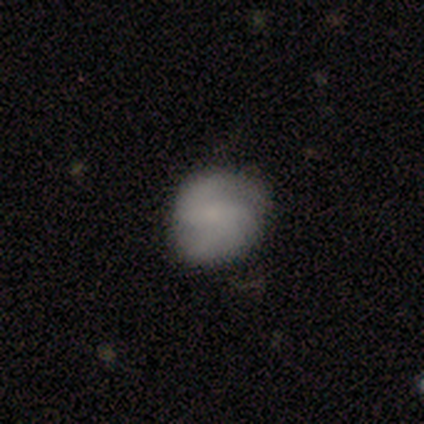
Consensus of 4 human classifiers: This is likely a featured or disk galaxy (75%). It is clearly not viewed edge-on (100%). Bar: marginally strong (33%, tied with weak and no). Spiral arm pattern: clearly yes (100%). Spiral arm count: clearly 2 (100%). Spiral winding: likely medium (67%). Central bulge: likely none (67%). Merging: clearly none (100%).